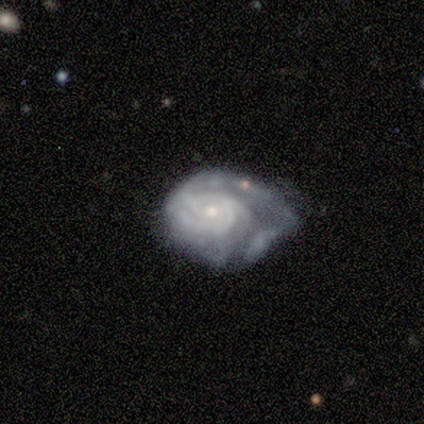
featured or disk 100%, smooth 0%, star or artifact 0%. Down the decision tree: edge-on disk — no (100%); bar — no (80%); spiral arms — yes (80%); spiral arm count — can't tell (50%); spiral winding — tight (100%); bulge size — small (80%); merging — none (60%).